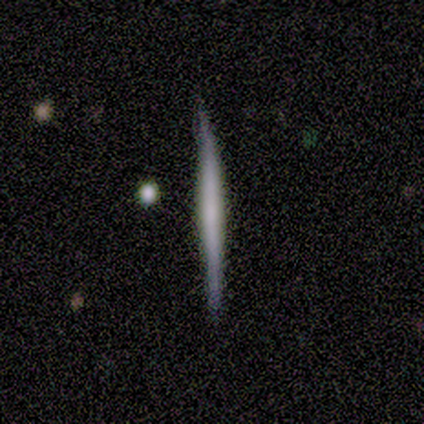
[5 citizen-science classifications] Smooth or featured: smooth — 40% (tied with star or artifact — 40%)
How rounded: cigar-shaped — 100%
Merging: minor disturbance — 67% (none — 33%)